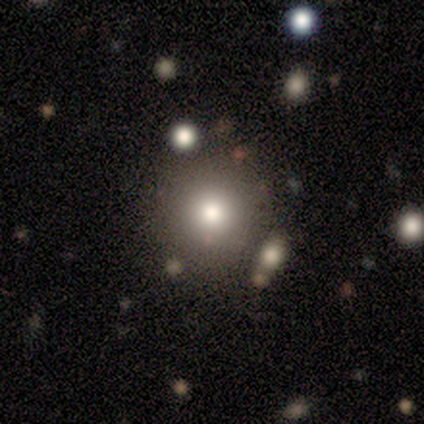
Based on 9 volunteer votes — smooth_or_featured: smooth (p=0.89) [alt: featured or disk p=0.11]
how_rounded: round (p=1.00)
merging: none (p=0.44) [tied with: minor disturbance p=0.44]